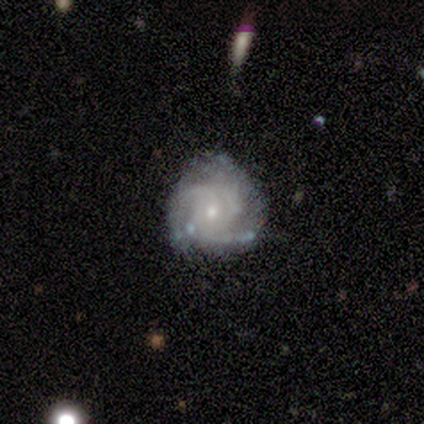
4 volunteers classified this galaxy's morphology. Smooth or featured? featured or disk (75%)
Edge-on disk? no (100%)
Bar? weak (67%)
Spiral arms? yes (67%)
Spiral winding? tight (100%)
Spiral arm count? 3 (100%)
Bulge size? small (67%)
Merging? none (75%)